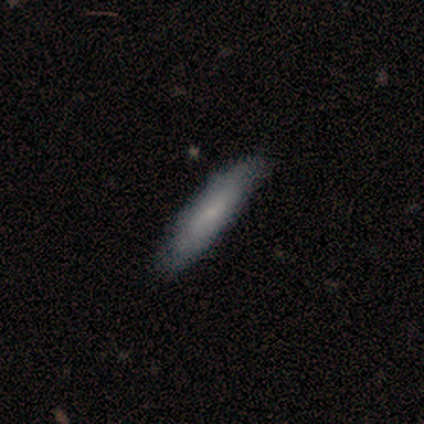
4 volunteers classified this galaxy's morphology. smooth 100%, featured or disk 0%, star or artifact 0%. Down the decision tree: how rounded — cigar-shaped (75%); merging — none (50%, tied with minor disturbance).